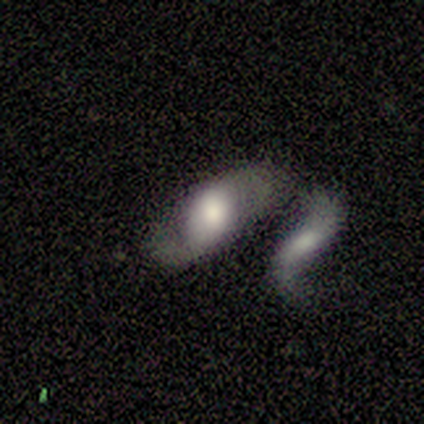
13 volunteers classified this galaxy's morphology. smooth_or_featured: smooth (p=0.46) [tied with: featured or disk p=0.46]
how_rounded: in between (p=0.83) [alt: cigar-shaped p=0.17]
merging: major disturbance (p=0.42) [tied with: merger p=0.42]